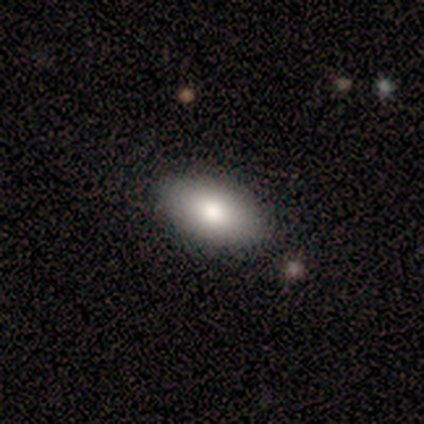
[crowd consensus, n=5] smooth_or_featured: smooth (p=0.80) [alt: featured or disk p=0.20]
how_rounded: in between (p=1.00)
merging: none (p=0.80) [alt: major disturbance p=0.20]